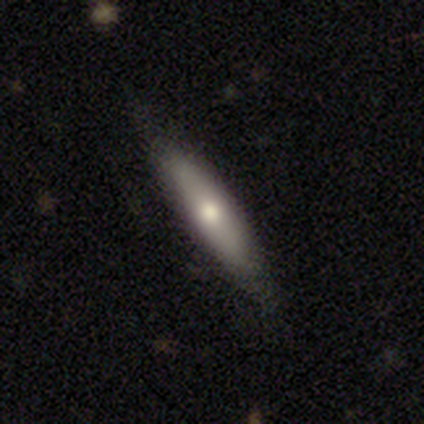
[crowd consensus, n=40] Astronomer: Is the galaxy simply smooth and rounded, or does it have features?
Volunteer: smooth — 55% (runner-up: featured or disk, 45%).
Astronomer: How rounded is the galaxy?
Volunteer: cigar-shaped — 82%.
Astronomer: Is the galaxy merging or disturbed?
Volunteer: none — 75%.